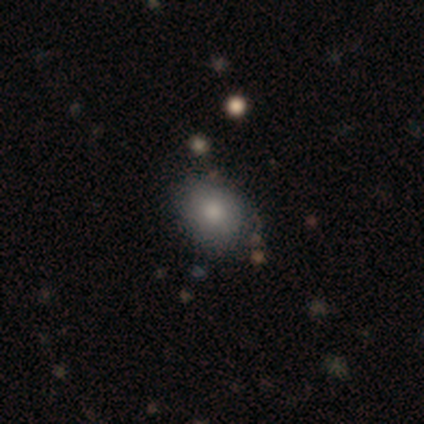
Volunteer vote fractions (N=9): Morphology: type=smooth (89%); roundness=in between (62%); merging=none (89%).